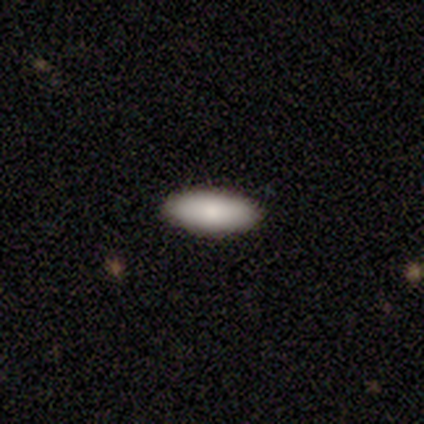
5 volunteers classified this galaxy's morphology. Overall: smooth (100%). How rounded: in between (80%). Merging: none (100%).